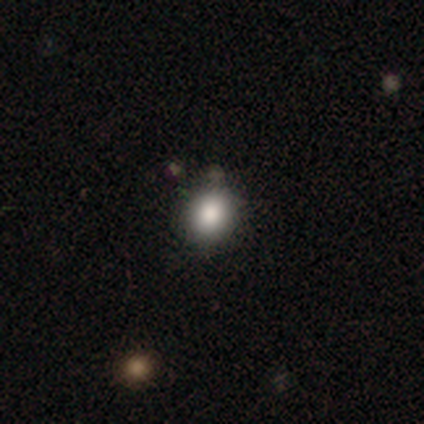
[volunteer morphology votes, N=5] smooth 60%, featured or disk 20%, star or artifact 20%. Down the decision tree: how rounded — round (100%); merging — none (100%).